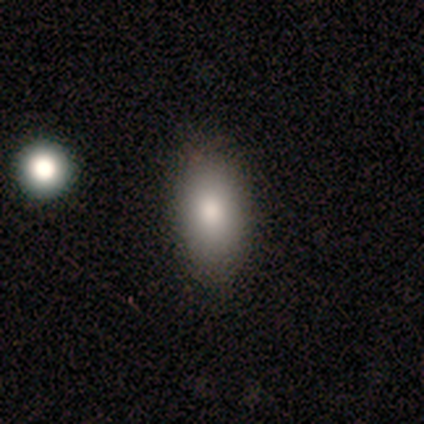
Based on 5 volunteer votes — Smooth or featured?
  - smooth: 60% *
  - featured or disk: 40%
  - star or artifact: 0%
How rounded?
  - in between: 67% *
  - cigar-shaped: 33%
  - round: 0%
Merging?
  - none: 100% *
  - minor disturbance: 0%
  - major disturbance: 0%
  - merger: 0%